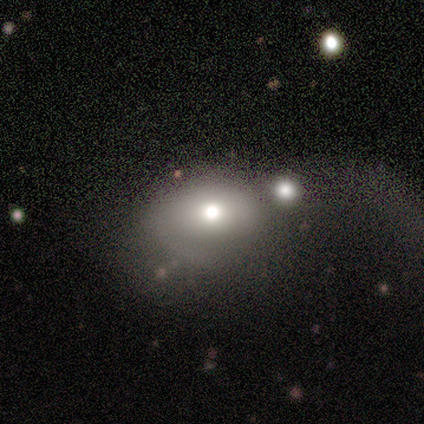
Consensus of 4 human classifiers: Smooth or featured? smooth (50%)
How rounded? round (50%, tied with in between)
Merging? none (67%)